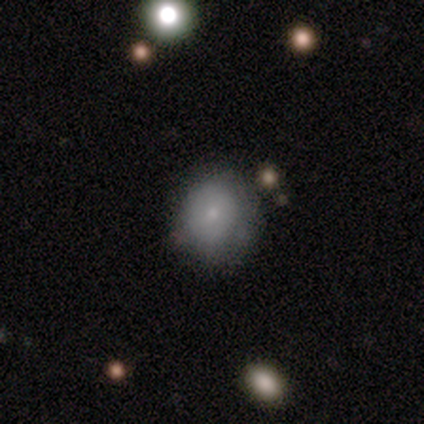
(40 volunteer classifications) Smooth or featured?
  - smooth: 80% *
  - featured or disk: 15%
  - star or artifact: 5%
How rounded?
  - round: 91% *
  - in between: 9%
  - cigar-shaped: 0%
Merging?
  - none: 61% *
  - minor disturbance: 29%
  - major disturbance: 11%
  - merger: 0%